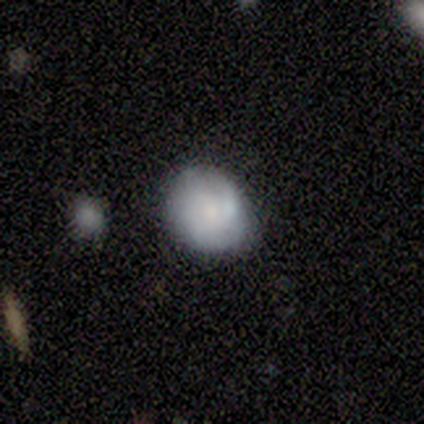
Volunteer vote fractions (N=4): This is likely a featured or disk galaxy (75%). It is clearly not viewed edge-on (100%). Bar: clearly no (100%). Spiral arm pattern: likely no (67%). Central bulge: likely small (67%). Merging: likely minor disturbance (75%).